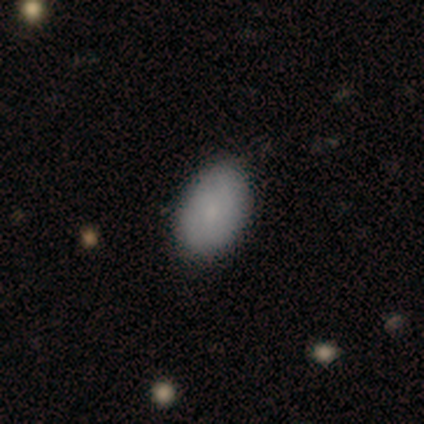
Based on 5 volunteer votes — Morphology: type=smooth (80%); roundness=in between (100%); merging=none (100%).